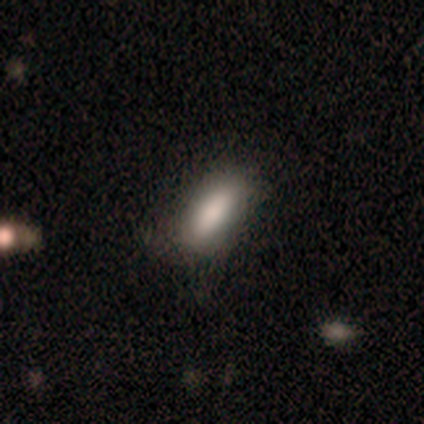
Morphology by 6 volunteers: Overall: smooth (83%). How rounded: in between (80%). Merging: none (40%, tied with minor disturbance).